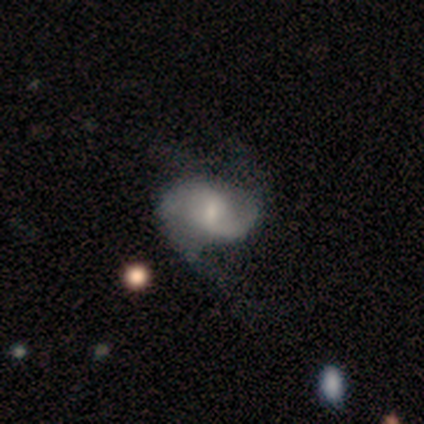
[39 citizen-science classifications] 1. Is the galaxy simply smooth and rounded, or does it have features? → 82% featured or disk, 15% smooth, 3% star or artifact.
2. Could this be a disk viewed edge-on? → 97% no, 3% yes.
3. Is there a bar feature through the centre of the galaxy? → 45% weak, 42% no, 13% strong.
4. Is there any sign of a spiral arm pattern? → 90% yes, 10% no.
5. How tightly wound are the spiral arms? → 54% loose, 43% medium, 4% tight.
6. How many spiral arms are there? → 54% 2, 18% 3, 14% 1, 14% can't tell, 0% 4, 0% more than 4.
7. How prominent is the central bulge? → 65% small, 19% moderate, 16% none, 0% dominant, 0% large.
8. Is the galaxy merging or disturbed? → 42% major disturbance, 24% none, 11% minor disturbance, 0% merger.